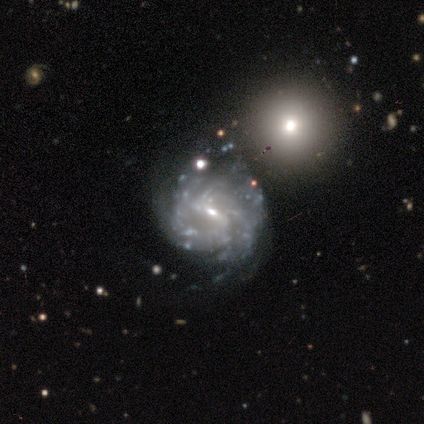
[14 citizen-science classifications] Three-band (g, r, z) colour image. It shows a featured or disk galaxy (93%) with a weak bar (69%), tight (58%) spiral arms (92%) and a small central bulge (69%). Merging: none (50%).